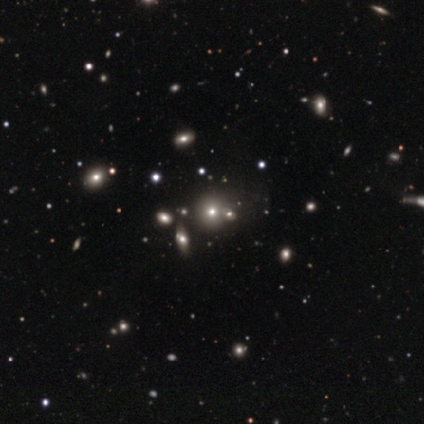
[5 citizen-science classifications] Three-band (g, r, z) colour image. It shows a smooth galaxy with no disk features (60%) that is round (67%). Merging: none (33%, tied with minor disturbance and merger).